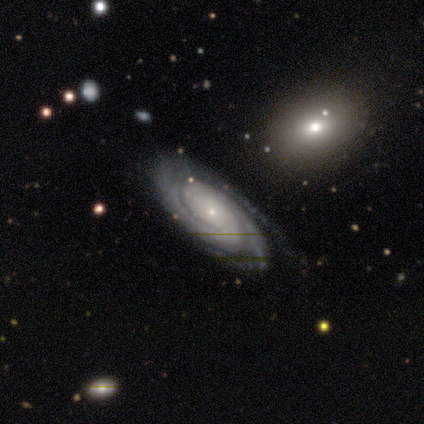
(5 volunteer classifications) Morphology: type=featured or disk (100%); edge-on=no (80%); bar=no (75%); spiral arms=yes (100%); winding=tight (75%); arm count=can't tell (75%); bulge=small (100%); merging=none (100%).